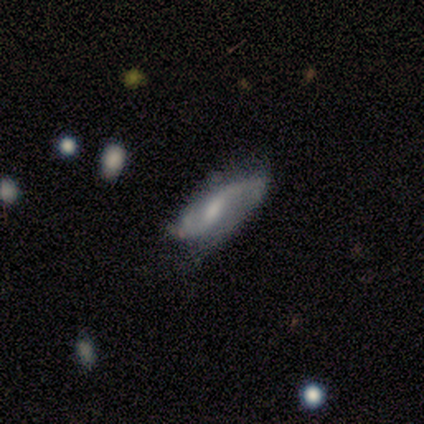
Smooth or featured?
  - featured or disk: 83% *
  - smooth: 17%
  - star or artifact: 0%
Edge-on disk?
  - no: 100% *
  - yes: 0%
Bar?
  - weak: 60% *
  - no: 40%
  - strong: 0%
Spiral arms?
  - yes: 80% *
  - no: 20%
Spiral winding?
  - loose: 50% *
  - tight: 25%
  - medium: 25%
Spiral arm count?
  - 2: 100% *
  - 1: 0%
  - 3: 0%
  - 4: 0%
  - more than 4: 0%
  - can't tell: 0%
Bulge size?
  - small: 60% *
  - moderate: 40%
  - dominant: 0%
  - large: 0%
  - none: 0%
Merging?
  - none: 67% *
  - minor disturbance: 33%
  - major disturbance: 0%
  - merger: 0%